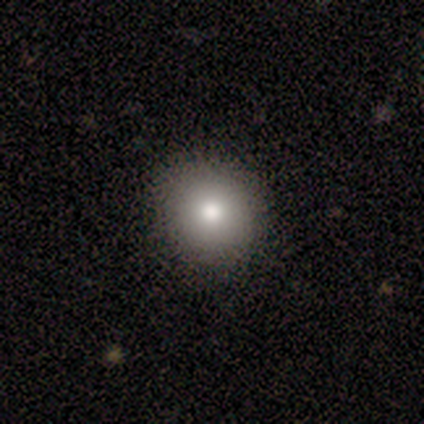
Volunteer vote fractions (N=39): A smooth galaxy with no disk features (77%) that is round (93%). Merging: none (88%).